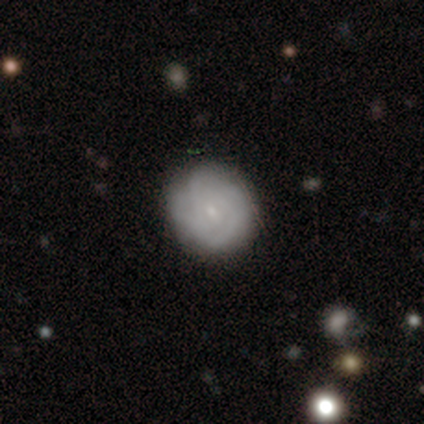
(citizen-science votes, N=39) featured or disk 59%, smooth 38%, star or artifact 3%. Down the decision tree: edge-on disk — no (100%); bar — weak (52%); spiral arms — yes (78%); spiral arm count — can't tell (56%); spiral winding — tight (78%); bulge size — small (74%); merging — none (74%).